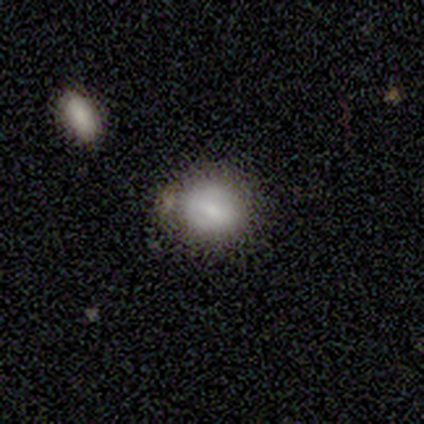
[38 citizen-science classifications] Smooth or featured? smooth (74%)
How rounded? round (64%)
Merging? none (78%)